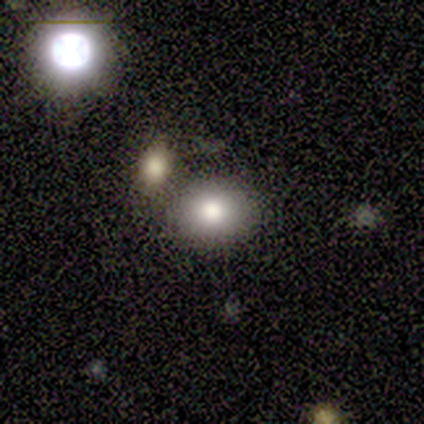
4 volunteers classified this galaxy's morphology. type=smooth (75%); roundness=round (100%); merging=none (33%, tied with minor disturbance and merger).